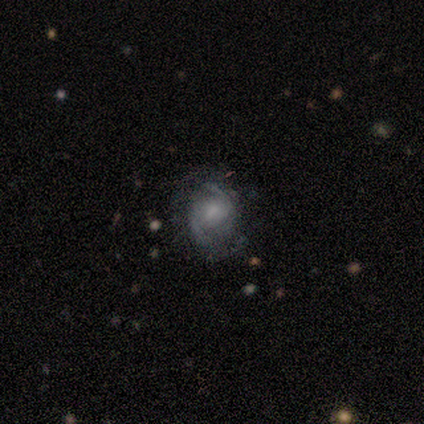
This is clearly a featured or disk galaxy (89%). It is clearly not viewed edge-on (97%). Bar: possibly weak (49%). Spiral arm pattern: clearly yes (96%). Spiral arm count: clearly 2 (89%). Spiral winding: possibly medium (49%). Central bulge: marginally moderate (31%). Merging: likely none (67%).